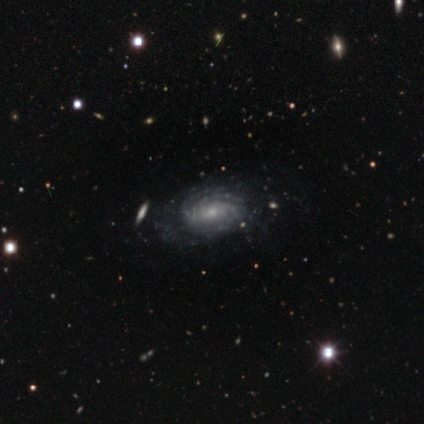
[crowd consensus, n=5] This is clearly a featured or disk galaxy (100%). It is clearly not viewed edge-on (100%). Bar: likely no (60%). Spiral arm pattern: clearly yes (100%). Spiral arm count: marginally can't tell (40%). Spiral winding: clearly tight (100%). Central bulge: likely small (60%). Merging: clearly none (100%).